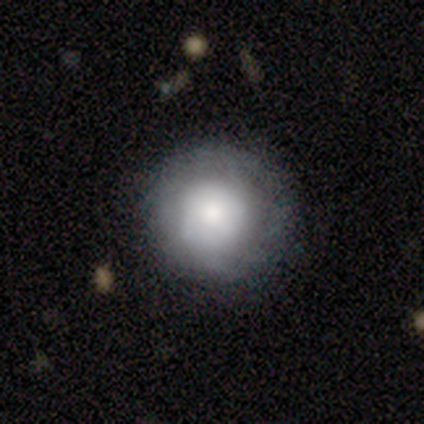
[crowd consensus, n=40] Smooth or featured?
  - smooth: 52% *
  - featured or disk: 42%
  - star or artifact: 5%
How rounded?
  - round: 95% *
  - in between: 5%
  - cigar-shaped: 0%
Merging?
  - none: 82% *
  - major disturbance: 11%
  - minor disturbance: 8%
  - merger: 0%